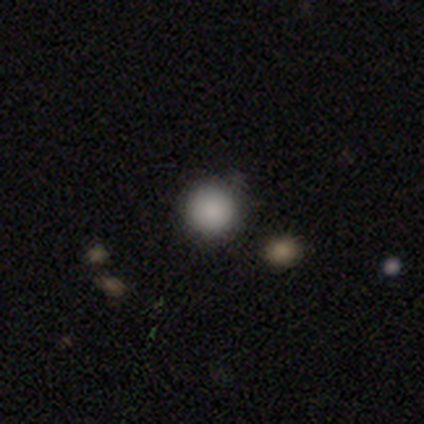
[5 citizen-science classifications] This appears to be a smooth galaxy with no disk features (100%) that is round (100%). Merging: none (60%).